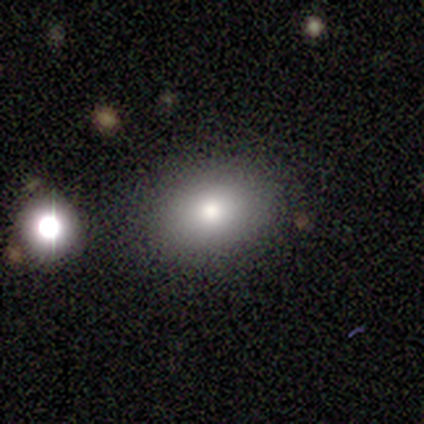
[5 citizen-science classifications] Smooth or featured?
  - smooth: 80% *
  - featured or disk: 20%
  - star or artifact: 0%
How rounded?
  - in between: 100% *
  - round: 0%
  - cigar-shaped: 0%
Merging?
  - none: 80% *
  - major disturbance: 20%
  - minor disturbance: 0%
  - merger: 0%